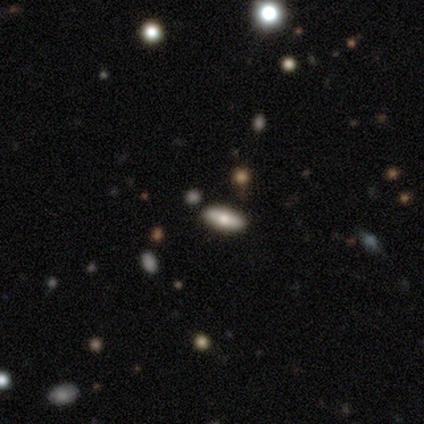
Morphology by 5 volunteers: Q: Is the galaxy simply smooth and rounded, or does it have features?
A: smooth — 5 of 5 (100%).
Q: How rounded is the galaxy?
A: in between — 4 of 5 (80%).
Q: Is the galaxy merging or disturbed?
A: none — 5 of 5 (100%).